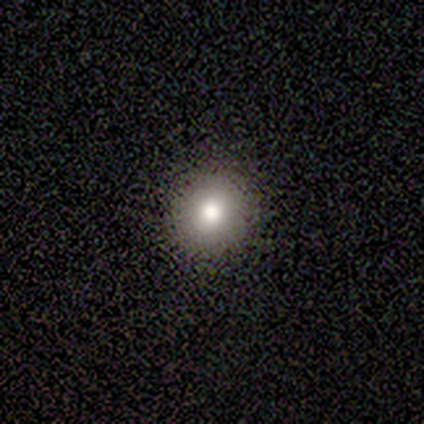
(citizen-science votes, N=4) Q: Smooth or featured?
A: smooth (100%)
Q: How rounded?
A: round (75%); runner-up: in between (25%)
Q: Merging?
A: none (75%); runner-up: minor disturbance (25%)